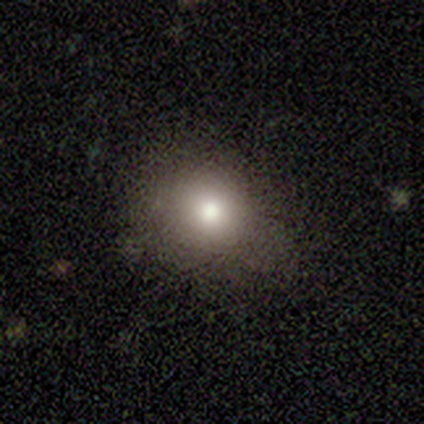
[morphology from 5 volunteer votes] Q: Smooth or featured?
A: smooth (60%); runner-up: featured or disk (20%)
Q: How rounded?
A: round (67%); runner-up: in between (33%)
Q: Merging?
A: none (100%)